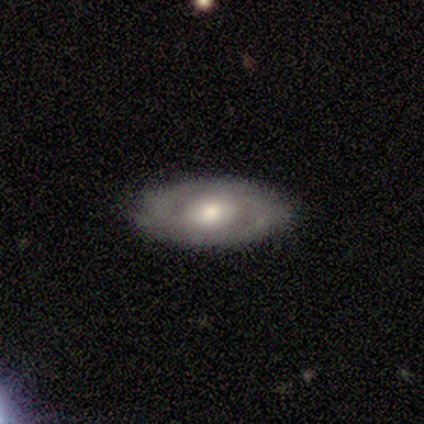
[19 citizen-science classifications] Morphology: type=featured or disk (84%); edge-on=no (94%); bar=weak (53%); spiral arms=yes (80%); winding=tight (83%); arm count=2 (75%); bulge=moderate (53%); merging=none (89%).